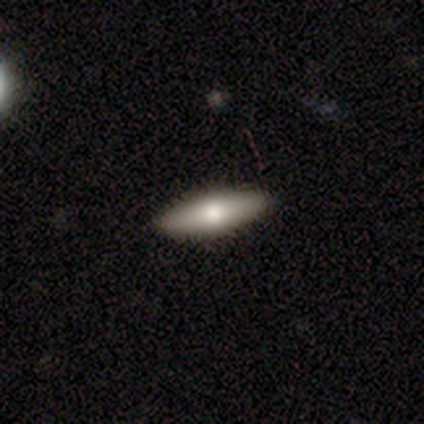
Q: Smooth or featured?
A: smooth (80%); runner-up: featured or disk (20%)
Q: How rounded?
A: in between (50%); tied with: cigar-shaped (50%)
Q: Merging?
A: none (100%)